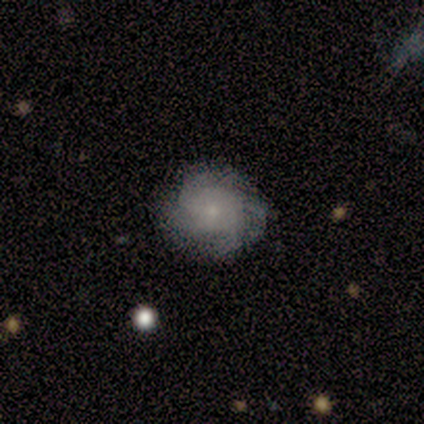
Smooth or featured: featured or disk — 67% (smooth — 33%)
Edge-on disk: no — 75% (yes — 25%)
Bar: no — 100%
Spiral arms: yes — 100%
Spiral winding: tight — 67% (medium — 33%)
Spiral arm count: 3 — 33% (tied with 4 — 33%; can't tell — 33%)
Bulge size: small — 100%
Merging: none — 83% (merger — 17%)